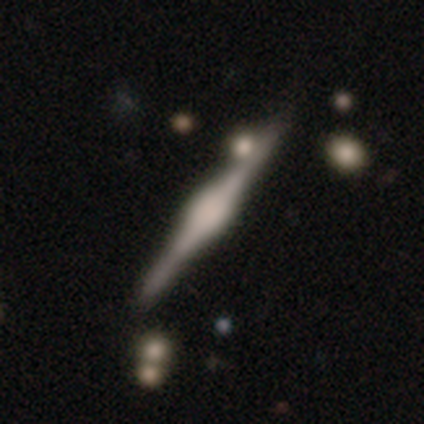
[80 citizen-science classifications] Smooth or featured? 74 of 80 (92%) said featured or disk. Edge-on disk? 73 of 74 (99%) said yes. Edge-on bulge? 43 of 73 (59%) said rounded. Merging? 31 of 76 (41%) said none.